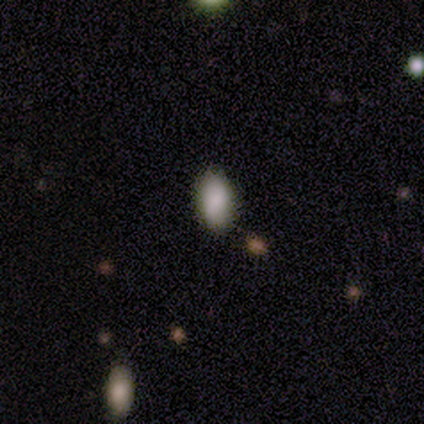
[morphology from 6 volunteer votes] This appears to be a smooth galaxy with no disk features (67%) that is in between round and cigar-shaped (100%). Merging: none (100%).